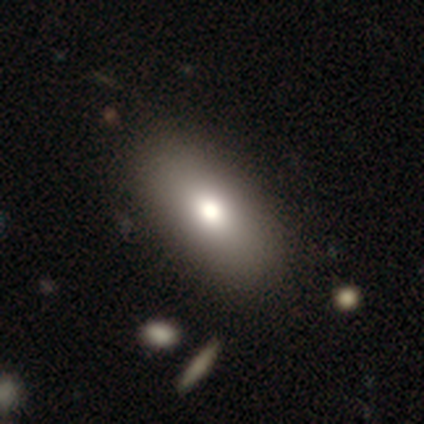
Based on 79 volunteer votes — Smooth or featured? 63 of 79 (80%) said smooth. How rounded? 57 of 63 (90%) said in between. Merging? 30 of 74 (41%) said none.